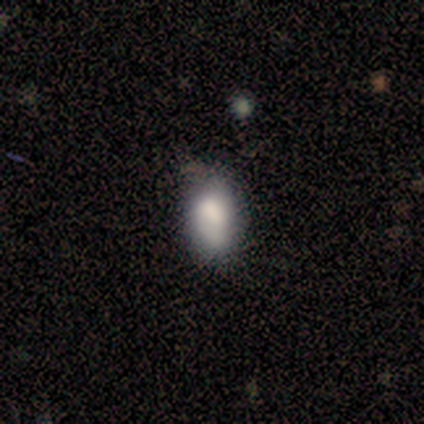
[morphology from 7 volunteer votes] Smooth or featured? smooth (86%)
How rounded? in between (100%)
Merging? none (83%)